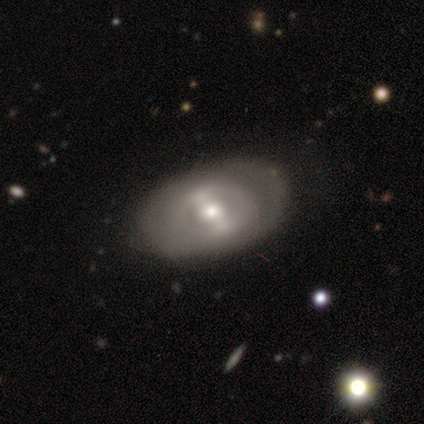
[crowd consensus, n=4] This is likely a featured or disk galaxy (75%). It is clearly not viewed edge-on (100%). Bar: marginally strong (33%, tied with weak and no). Spiral arm pattern: likely no (67%). Central bulge: likely moderate (67%). Merging: clearly none (100%).